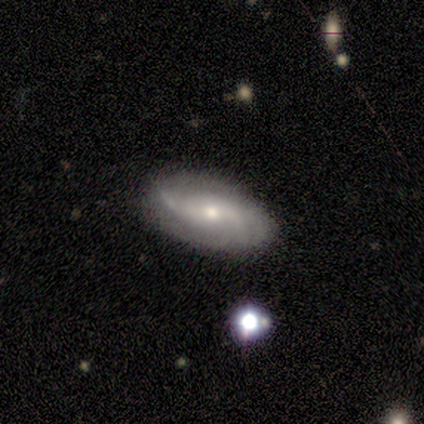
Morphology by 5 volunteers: smooth-or-featured: featured or disk: 100% | smooth: 0% | star or artifact: 0%
  disk-edge-on: no: 80% | yes: 20%
    bar: no: 75% | weak: 25% | strong: 0%
    has-spiral-arms: yes: 100% | no: 0%
      spiral-winding: loose: 75% | tight: 25% | medium: 0%
      spiral-arm-count: 2: 50% (tied) | can't tell: 50% (tied) | 1: 0% | 3: 0% | 4: 0% | more than 4: 0%
    bulge-size: small: 100% | dominant: 0% | large: 0% | moderate: 0% | none: 0%
  merging: none: 80% | major disturbance: 20% | minor disturbance: 0% | merger: 0%